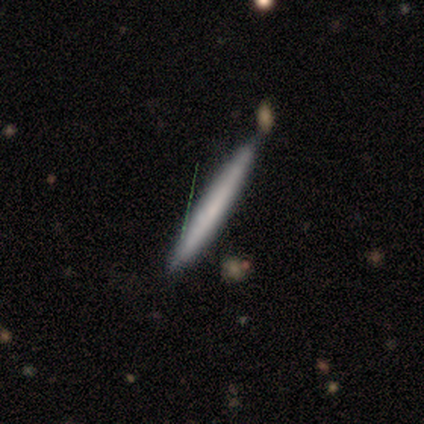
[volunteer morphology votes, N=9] Volunteers were most divided on "merging": none: 78%, minor disturbance: 11%, merger: 11%, major disturbance: 0%. More confident: how rounded — cigar-shaped (100%); smooth or featured — smooth (89%).